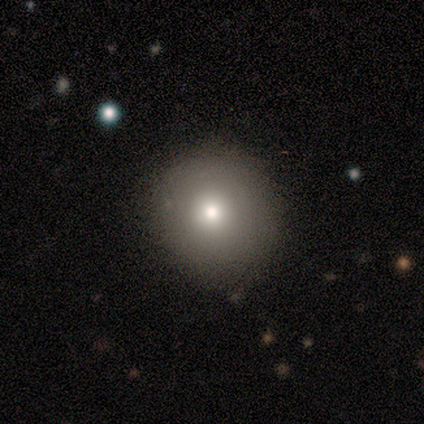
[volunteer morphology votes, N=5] smooth-or-featured: smooth: 80% | star or artifact: 20% | featured or disk: 0%
  how-rounded: round: 100% | in between: 0% | cigar-shaped: 0%
  merging: none: 100% | minor disturbance: 0% | major disturbance: 0% | merger: 0%